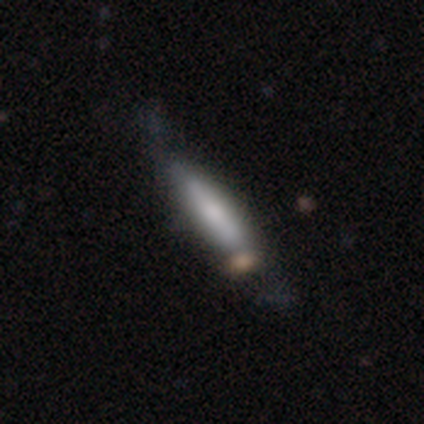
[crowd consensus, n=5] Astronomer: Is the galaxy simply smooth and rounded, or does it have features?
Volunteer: smooth — 60% (runner-up: featured or disk, 40%).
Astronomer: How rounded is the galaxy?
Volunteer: cigar-shaped — 100%.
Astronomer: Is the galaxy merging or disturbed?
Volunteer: none — 40% (runner-up: minor disturbance, 20%).